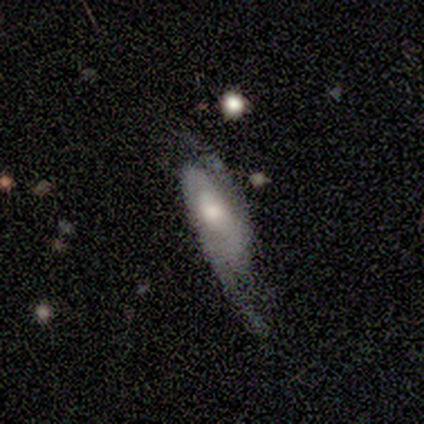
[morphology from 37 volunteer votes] Volunteers were most divided on "spiral winding": medium: 40%, tight: 30%, loose: 30%. More confident: spiral arm count — 2 (95%); edge-on disk — no (92%); spiral arms — yes (83%); smooth or featured — featured or disk (70%); bulge size — moderate (67%); bar — no (58%); merging — none (51%).